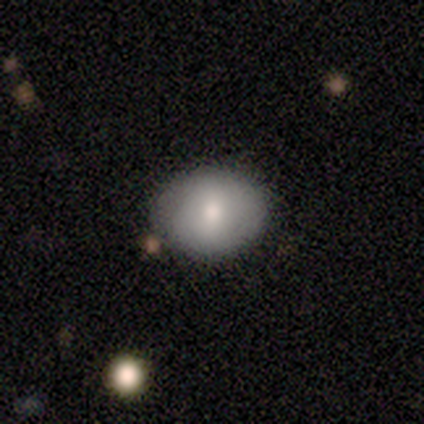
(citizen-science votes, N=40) Smooth or featured: smooth — 72% (featured or disk — 20%)
How rounded: in between — 52% (round — 48%)
Merging: none — 81% (minor disturbance — 16%)